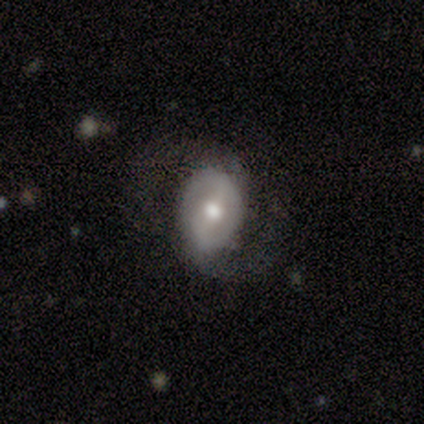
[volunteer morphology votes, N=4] featured or disk 75%, smooth 25%, star or artifact 0%. Down the decision tree: edge-on disk — no (100%); bar — strong (33%, tied with weak and no); spiral arms — yes (100%); spiral arm count — 2 (100%); spiral winding — loose (100%); bulge size — moderate (67%); merging — none (50%).